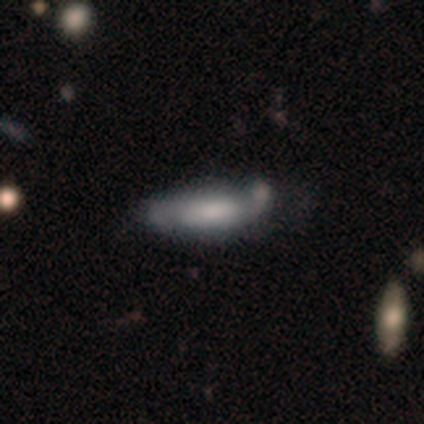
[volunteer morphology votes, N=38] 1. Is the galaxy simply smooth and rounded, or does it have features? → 61% featured or disk, 34% smooth, 5% star or artifact.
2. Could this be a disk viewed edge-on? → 70% no, 30% yes.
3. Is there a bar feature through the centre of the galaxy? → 50% no, 31% weak, 19% strong.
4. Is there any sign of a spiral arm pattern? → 75% yes, 25% no.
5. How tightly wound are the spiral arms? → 58% medium, 25% tight, 17% loose.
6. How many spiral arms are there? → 75% 2, 17% can't tell, 8% more than 4, 0% 1, 0% 3, 0% 4.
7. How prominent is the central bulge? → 38% large, 25% moderate, 19% small, 12% none, 6% dominant.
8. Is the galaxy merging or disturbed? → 39% none, 25% minor disturbance, 25% major disturbance, 11% merger.